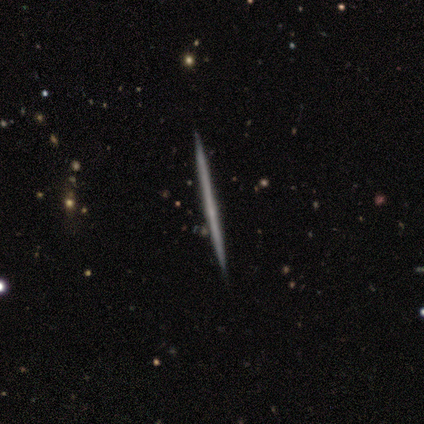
A featured or disk galaxy (80%) viewed edge-on (100%) with no central bulge (100%). Merging: none (100%).